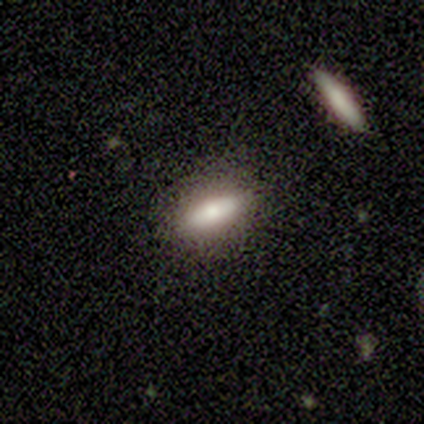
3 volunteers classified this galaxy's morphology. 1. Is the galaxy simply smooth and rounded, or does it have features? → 100% smooth, 0% featured or disk, 0% star or artifact.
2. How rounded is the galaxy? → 100% in between, 0% round, 0% cigar-shaped.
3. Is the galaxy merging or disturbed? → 100% none, 0% minor disturbance, 0% major disturbance, 0% merger.